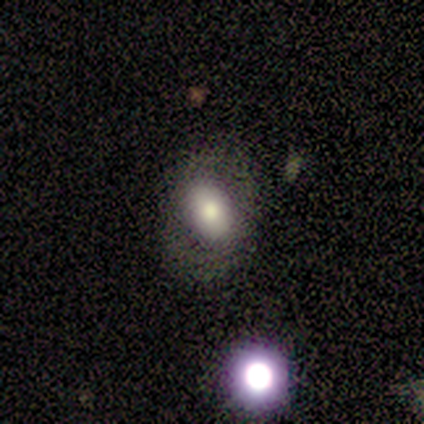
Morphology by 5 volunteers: Smooth or featured? 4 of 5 (80%) said smooth. How rounded? 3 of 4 (75%) said in between. Merging? 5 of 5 (100%) said none.